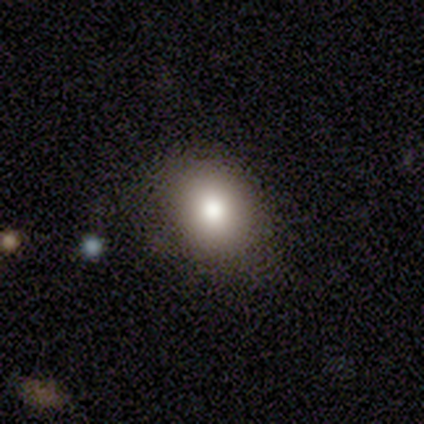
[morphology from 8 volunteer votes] Overall: smooth (88%). How rounded: round (57%; in between 43%). Merging: none (57%; minor disturbance 43%).